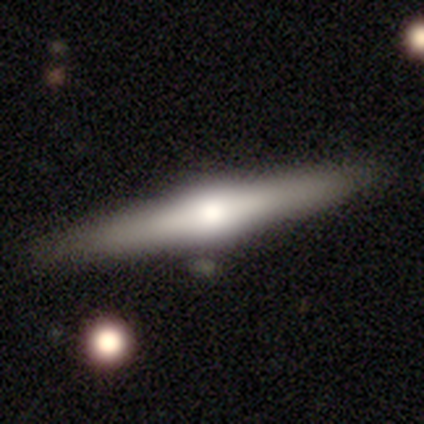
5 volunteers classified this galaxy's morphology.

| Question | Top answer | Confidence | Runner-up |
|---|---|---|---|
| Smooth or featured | featured or disk | 80% | smooth (20%) |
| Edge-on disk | yes | 100% | — |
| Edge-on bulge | rounded | 100% | — |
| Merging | none | 80% | minor disturbance (20%) |